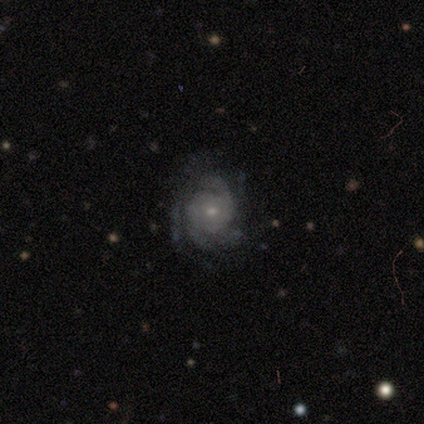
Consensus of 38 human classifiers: Q: Smooth or featured?
A: featured or disk (82%); runner-up: smooth (13%)
Q: Edge-on disk?
A: no (97%); runner-up: yes (3%)
Q: Bar?
A: no (80%); runner-up: weak (17%)
Q: Spiral arms?
A: yes (100%)
Q: Spiral winding?
A: tight (53%); runner-up: medium (40%)
Q: Spiral arm count?
A: 3 (27%); runner-up: 2 (23%)
Q: Bulge size?
A: small (67%); runner-up: moderate (30%)
Q: Merging?
A: none (64%); runner-up: minor disturbance (25%)